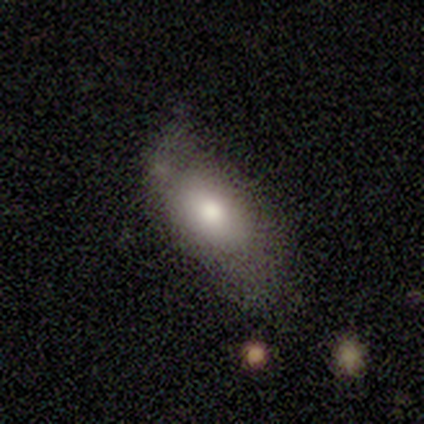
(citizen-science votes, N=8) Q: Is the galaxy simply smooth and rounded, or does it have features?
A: smooth — 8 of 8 (100%).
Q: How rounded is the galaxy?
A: in between — 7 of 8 (88%).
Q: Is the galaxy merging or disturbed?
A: none — 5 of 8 (62%).